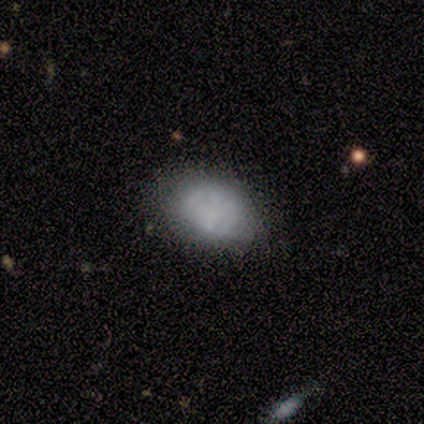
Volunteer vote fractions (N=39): smooth_or_featured: smooth (p=0.72) [alt: featured or disk p=0.18]
how_rounded: in between (p=0.68) [alt: round p=0.32]
merging: none (p=0.71) [alt: minor disturbance p=0.17]